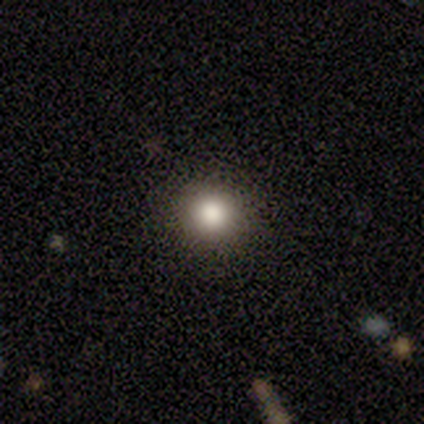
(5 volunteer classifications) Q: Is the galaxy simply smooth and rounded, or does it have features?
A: smooth — 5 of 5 (100%).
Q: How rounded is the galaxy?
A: round — 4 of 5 (80%).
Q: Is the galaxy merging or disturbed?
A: none — 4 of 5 (80%).